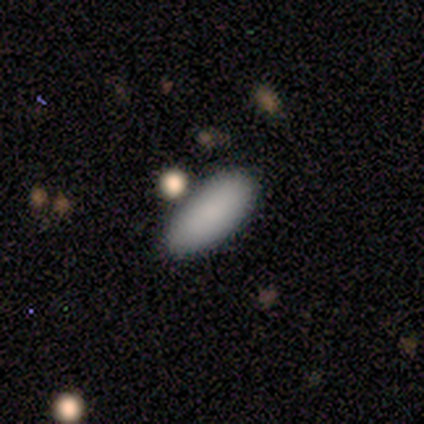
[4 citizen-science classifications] smooth_or_featured: smooth (p=1.00)
how_rounded: cigar-shaped (p=0.50) [alt: round p=0.25]
merging: none (p=0.75) [alt: merger p=0.25]